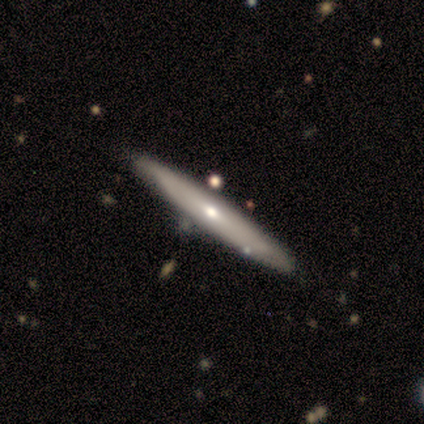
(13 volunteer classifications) Overall: featured or disk (62%; smooth 38%). Edge-on disk: yes (100%). Edge-on bulge: rounded (62%; none 38%). Merging: none (85%).